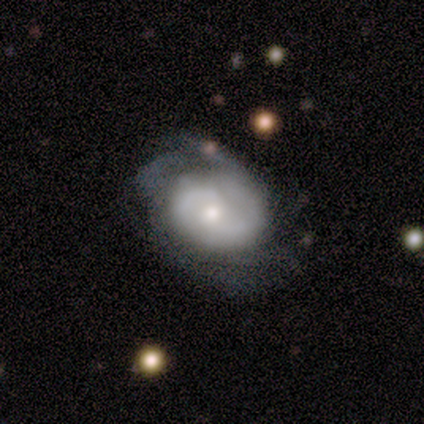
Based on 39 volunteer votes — A featured or disk galaxy (82%) with no bar (67%), 2 (57%) tight (71%) spiral arms (93%) and a moderate central bulge (50%).

Vote fractions:
- Smooth or featured? featured or disk: 82% / smooth: 18% / star or artifact: 0%
- Edge-on disk? no: 94% / yes: 6%
- Bar? no: 67% / weak: 27% / strong: 7%
- Spiral arms? yes: 93% / no: 7%
- Spiral winding? tight: 71% / medium: 21% / loose: 7%
- Spiral arm count? 2: 57% / can't tell: 32% / 1: 4% / 3: 4% / 4: 4% / more than 4: 0%
- Bulge size? moderate: 50% / small: 37% / dominant: 7% / large: 7% / none: 0%
- Merging? minor disturbance: 46% / none: 38% / major disturbance: 10% / merger: 5%